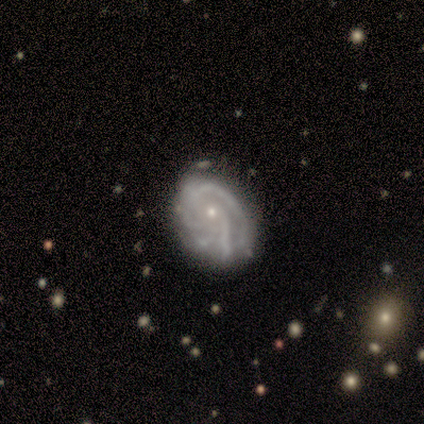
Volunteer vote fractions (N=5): A featured or disk galaxy (60%) with no bar (67%), 4 (67%) tight (100%) spiral arms (100%) and a small central bulge (67%). Merging: none (75%).